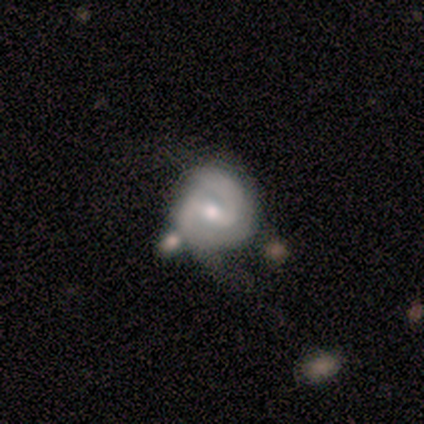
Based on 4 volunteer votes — This is clearly a featured or disk galaxy (100%). It is clearly not viewed edge-on (100%). Bar: likely weak (75%). Spiral arm pattern: clearly yes (100%). Spiral arm count: clearly 2 (100%). Spiral winding: possibly tight (50%). Central bulge: likely moderate (75%). Merging: likely minor disturbance (75%).